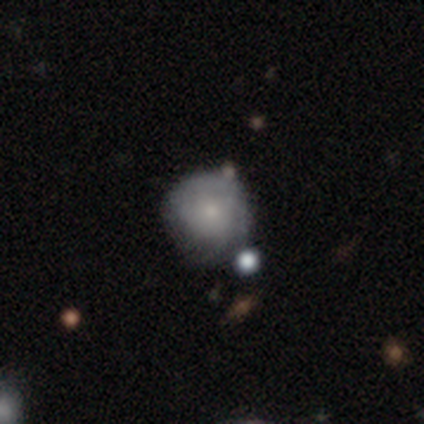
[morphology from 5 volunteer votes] smooth 80%, featured or disk 20%, star or artifact 0%. Down the decision tree: how rounded — in between (75%); merging — none (60%).